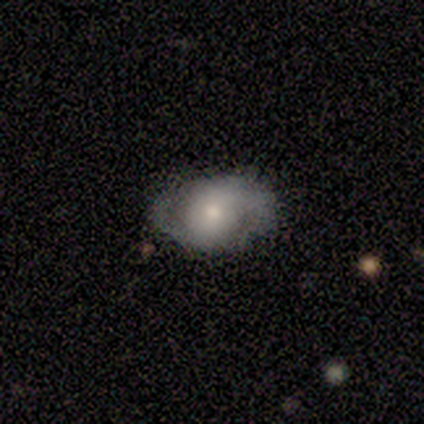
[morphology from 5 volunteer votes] This is likely a smooth galaxy (60%). How rounded: likely in between (67%). Merging: likely none (60%).